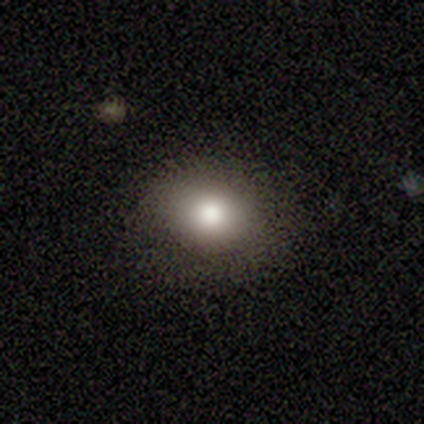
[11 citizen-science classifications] This appears to be a smooth galaxy with no disk features (73%) that is in between round and cigar-shaped (88%). Merging: none (100%).